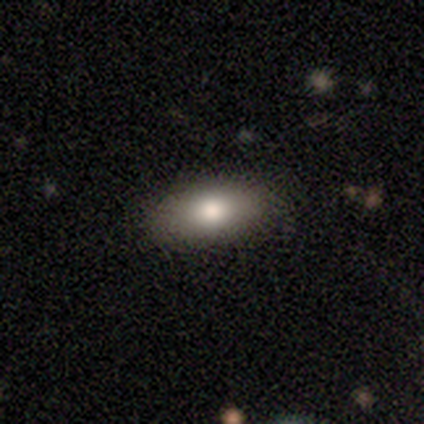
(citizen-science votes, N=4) Q: Smooth or featured?
A: smooth (75%); runner-up: featured or disk (25%)
Q: How rounded?
A: in between (100%)
Q: Merging?
A: none (100%)